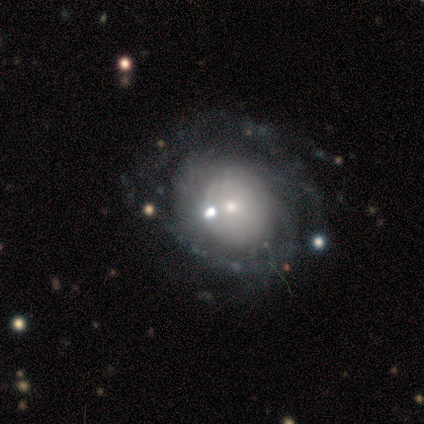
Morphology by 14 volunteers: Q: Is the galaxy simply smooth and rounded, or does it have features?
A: featured or disk — 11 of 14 (79%).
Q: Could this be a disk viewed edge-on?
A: no — 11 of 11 (100%).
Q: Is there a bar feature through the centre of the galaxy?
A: no — 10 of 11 (91%).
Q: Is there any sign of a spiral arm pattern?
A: yes — 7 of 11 (64%).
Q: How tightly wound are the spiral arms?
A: tight — 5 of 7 (71%).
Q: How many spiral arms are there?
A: can't tell — 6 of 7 (86%).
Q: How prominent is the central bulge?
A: small — 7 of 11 (64%).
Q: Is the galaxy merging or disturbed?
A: none — 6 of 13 (46%).